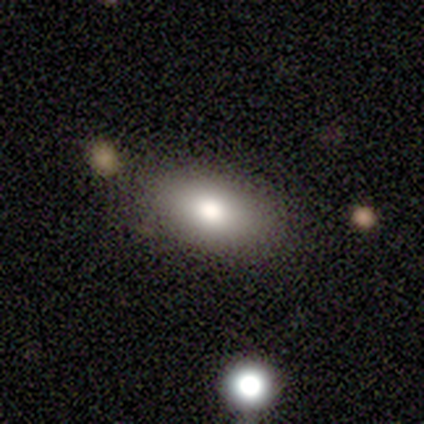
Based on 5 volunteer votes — Volunteers were most divided on "merging" (2-way tie): none: 50%, minor disturbance: 50%, major disturbance: 0%, merger: 0%. More confident: how rounded — in between (100%); smooth or featured — smooth (80%).